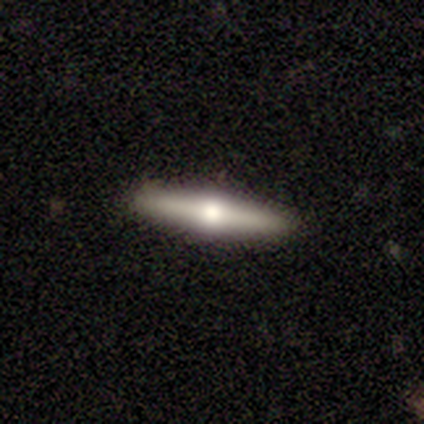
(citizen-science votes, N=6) Smooth or featured? 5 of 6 (83%) said featured or disk. Edge-on disk? 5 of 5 (100%) said yes. Edge-on bulge? 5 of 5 (100%) said rounded. Merging? 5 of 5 (100%) said none.